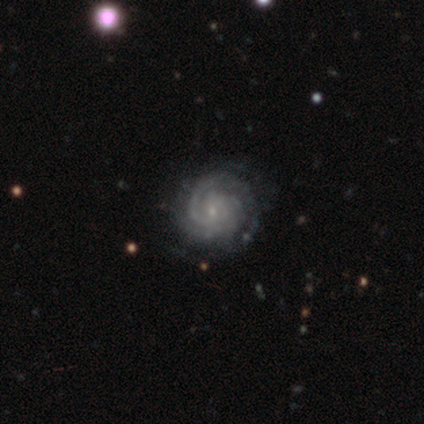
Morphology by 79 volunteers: A featured or disk galaxy (92%) with no bar (67%), 2 (40%) tight (79%) spiral arms (99%) and a small central bulge (93%).

Vote fractions:
- Smooth or featured? featured or disk: 92% / star or artifact: 5% / smooth: 3%
- Edge-on disk? no: 100% / yes: 0%
- Bar? no: 67% / weak: 32% / strong: 1%
- Spiral arms? yes: 99% / no: 1%
- Spiral winding? tight: 79% / medium: 17% / loose: 4%
- Spiral arm count? 2: 40% / can't tell: 25% / 3: 15% / 1: 12% / more than 4: 4% / 4: 3%
- Bulge size? small: 93% / moderate: 3% / none: 3% / large: 1% / dominant: 0%
- Merging? none: 40% / minor disturbance: 9% / merger: 1% / major disturbance: 0%